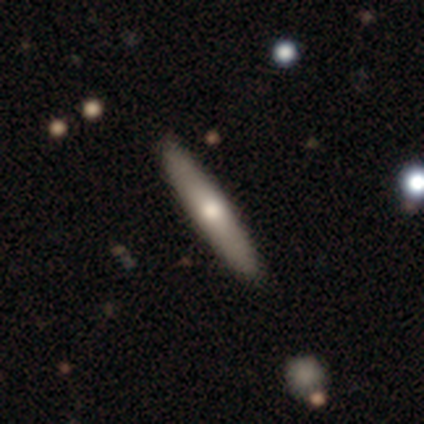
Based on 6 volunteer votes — Volunteers were most divided on "smooth or featured" (2-way tie): smooth: 50%, featured or disk: 50%, star or artifact: 0%. More confident: how rounded — cigar-shaped (100%); merging — none (100%).